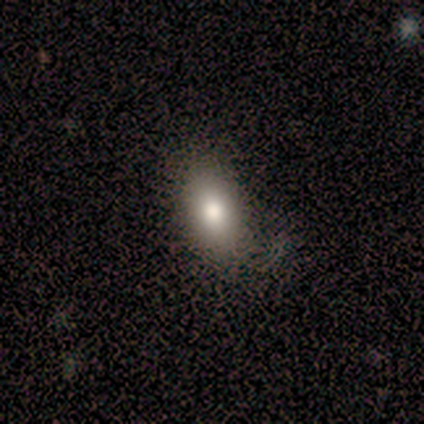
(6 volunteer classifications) smooth_or_featured: smooth (p=0.83) [alt: featured or disk p=0.17]
how_rounded: in between (p=1.00)
merging: none (p=0.67) [alt: major disturbance p=0.33]